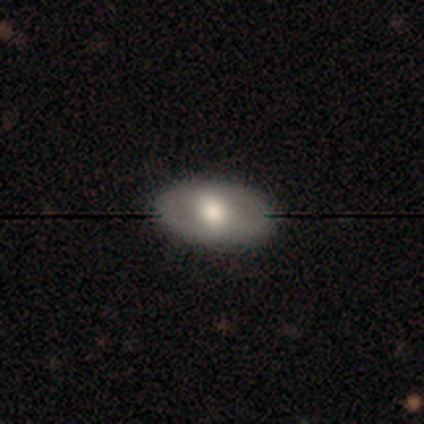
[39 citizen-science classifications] Smooth or featured: smooth — 54% (featured or disk — 38%)
How rounded: in between — 95% (round — 5%)
Merging: none — 92% (minor disturbance — 8%)